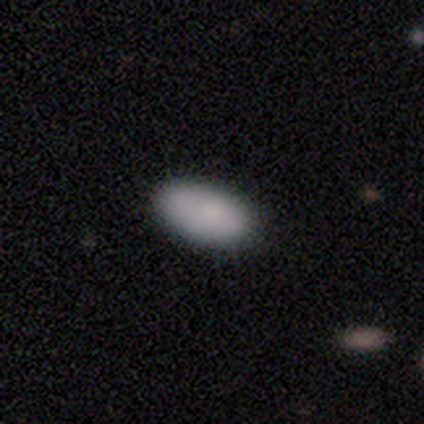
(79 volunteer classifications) Morphology: type=smooth (89%); roundness=in between (97%); merging=none (69%).